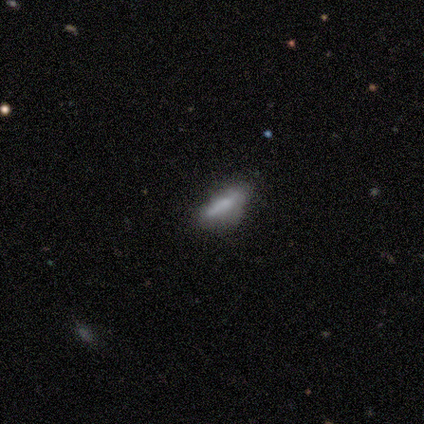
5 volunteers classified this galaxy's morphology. Volunteers were most divided on "merging": minor disturbance: 60%, none: 40%, major disturbance: 0%, merger: 0%. More confident: smooth or featured — smooth (80%); how rounded — cigar-shaped (75%).